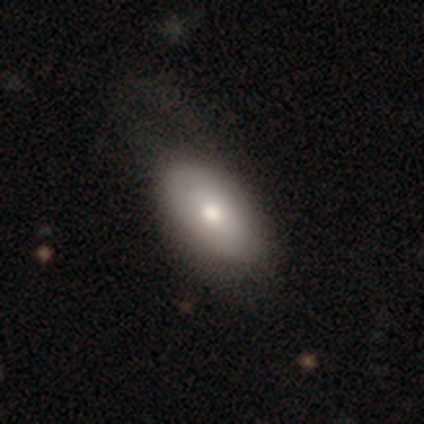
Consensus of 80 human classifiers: Q: Smooth or featured?
A: smooth (71%); runner-up: featured or disk (29%)
Q: How rounded?
A: in between (89%); runner-up: round (7%)
Q: Merging?
A: none (57%); runner-up: minor disturbance (28%)